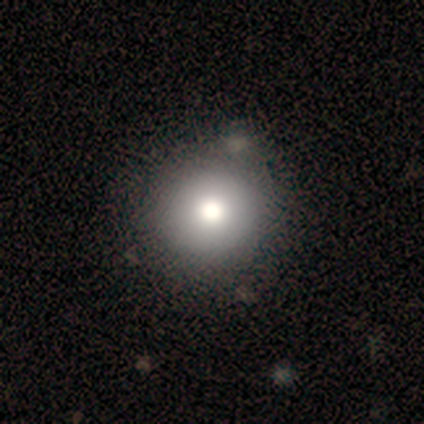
Morphology: type=smooth (79%); roundness=round (100%); merging=none (44%).